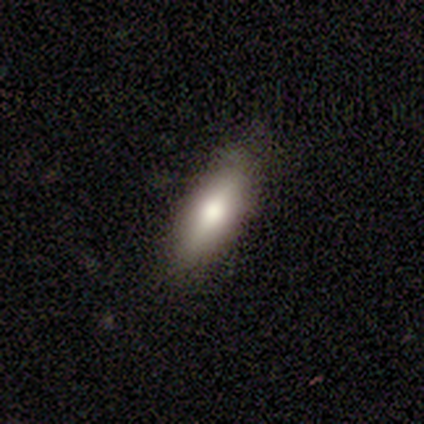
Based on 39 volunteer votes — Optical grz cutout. It shows a smooth galaxy with no disk features (67%) that is in between round and cigar-shaped (54%). Merging: none (86%).